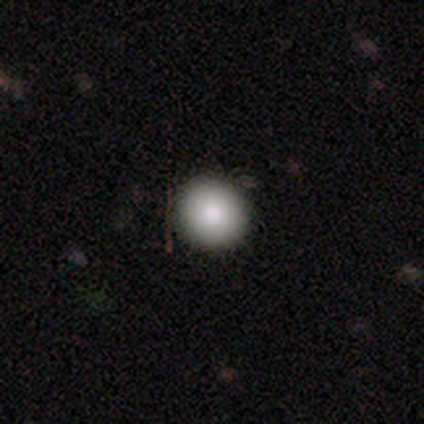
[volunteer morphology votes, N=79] Smooth or featured?
  - smooth: 87% *
  - star or artifact: 8%
  - featured or disk: 5%
How rounded?
  - round: 97% *
  - in between: 1%
  - cigar-shaped: 1%
Merging?
  - none: 55% *
  - minor disturbance: 3%
  - major disturbance: 1%
  - merger: 0%